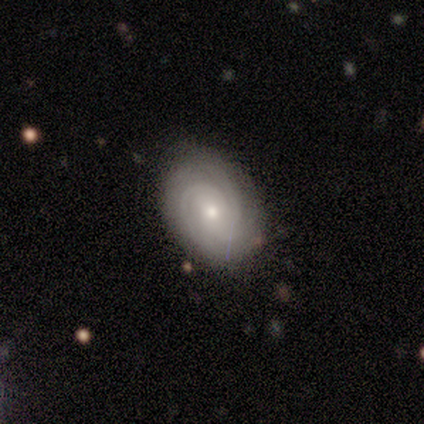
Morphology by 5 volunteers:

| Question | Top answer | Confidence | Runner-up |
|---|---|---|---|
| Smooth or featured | featured or disk | 60% | smooth (40%) |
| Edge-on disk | no | 100% | — |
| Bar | no | 100% | — |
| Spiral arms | yes | 100% | — |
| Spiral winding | tight | 100% | — |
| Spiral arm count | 2 | 33% | tied: 3 (33%), can't tell (33%) |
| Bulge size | small | 67% | moderate (33%) |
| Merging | none | 100% | — |